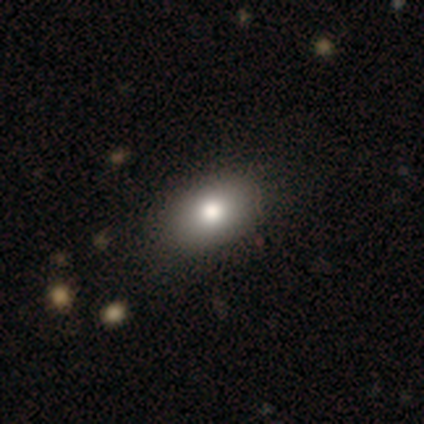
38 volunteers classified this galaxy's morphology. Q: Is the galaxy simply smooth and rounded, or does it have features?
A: smooth — 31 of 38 (82%).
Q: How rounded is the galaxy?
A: in between — 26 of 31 (84%).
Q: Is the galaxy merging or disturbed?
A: none — 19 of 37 (51%).